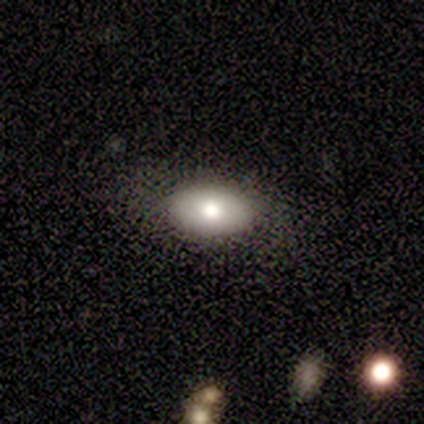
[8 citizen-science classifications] smooth 88%, featured or disk 12%, star or artifact 0%. Down the decision tree: how rounded — in between (100%); merging — none (100%).